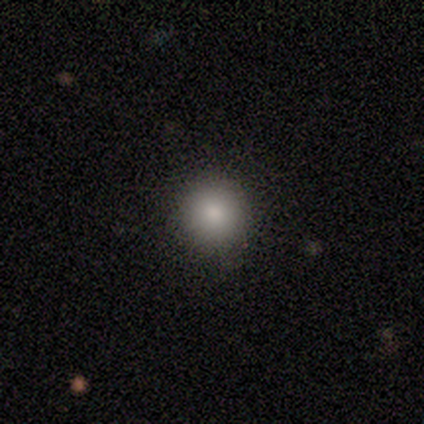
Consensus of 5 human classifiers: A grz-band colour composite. It shows a smooth galaxy with no disk features (80%) that is round (75%). Merging: none (50%).